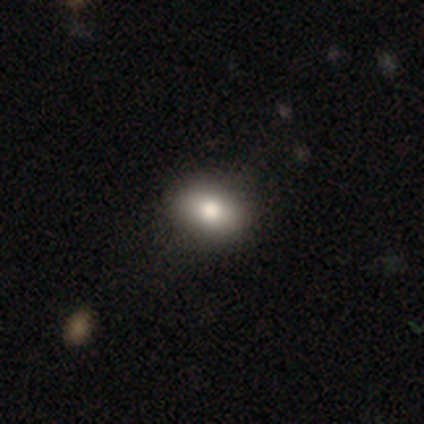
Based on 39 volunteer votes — Smooth or featured: smooth — 77% (featured or disk — 15%)
How rounded: in between — 73% (round — 27%)
Merging: none — 75% (minor disturbance — 17%)